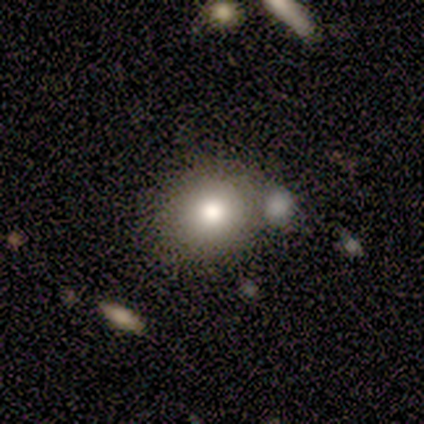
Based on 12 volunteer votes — Smooth or featured: smooth — 83% (featured or disk — 17%)
How rounded: round — 70% (in between — 30%)
Merging: none — 83% (minor disturbance — 17%)